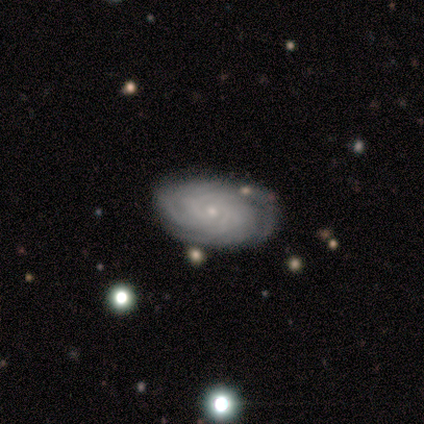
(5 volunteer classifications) A featured or disk galaxy (100%) with no bar (100%), tight (75%) spiral arms (100%) and a small central bulge (100%). Merging: none (80%).